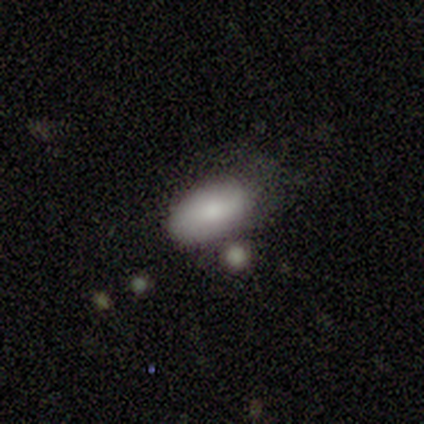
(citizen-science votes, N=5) smooth_or_featured: smooth (p=1.00)
how_rounded: in between (p=1.00)
merging: minor disturbance (p=0.40) [tied with: merger p=0.40]